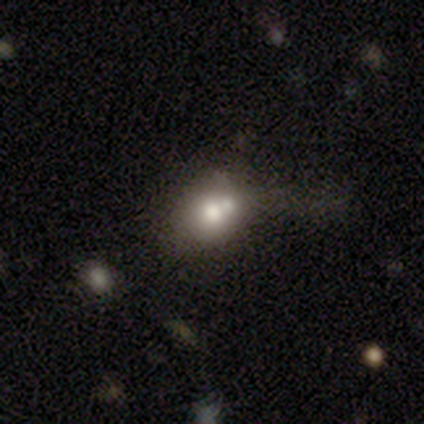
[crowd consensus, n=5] A smooth galaxy with no disk features (60%) that is in between round and cigar-shaped (100%). Merging: none (75%).